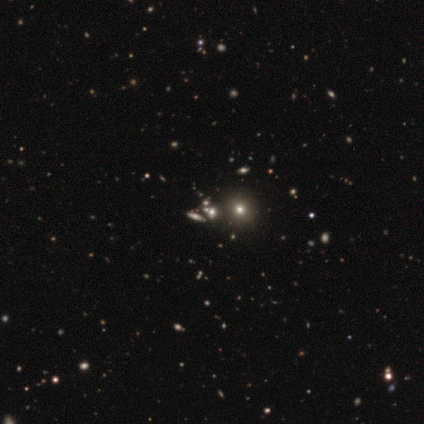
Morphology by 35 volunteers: Smooth or featured? star or artifact (57%)